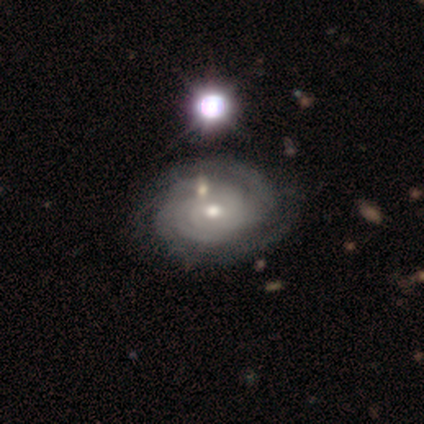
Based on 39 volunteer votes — Overall: featured or disk (92%). Edge-on disk: no (97%). Bar: no (66%; weak 29%). Spiral arms: yes (100%). Spiral arm count: 4 (29%; can't tell 23%). Spiral winding: tight (83%). Bulge size: moderate (63%; small 37%). Merging: none (63%).